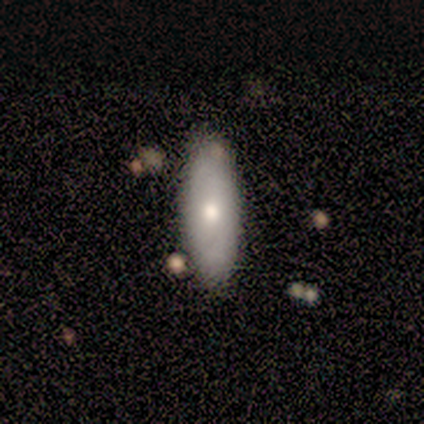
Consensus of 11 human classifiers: Overall: smooth (55%; featured or disk 36%). How rounded: in between (50%, tied with cigar-shaped). Merging: none (70%).